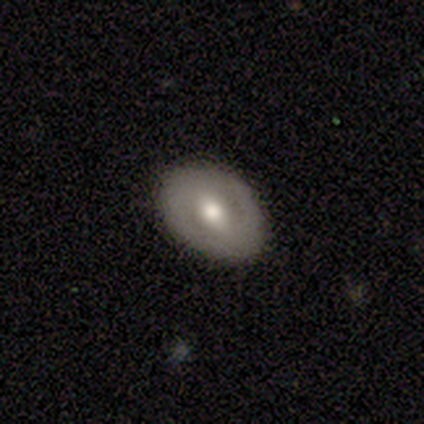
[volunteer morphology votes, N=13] smooth 54%, featured or disk 46%, star or artifact 0%. Down the decision tree: how rounded — in between (86%); merging — none (85%).